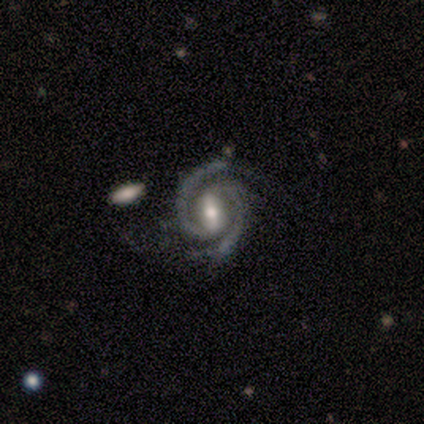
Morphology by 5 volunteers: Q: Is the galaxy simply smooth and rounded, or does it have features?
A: featured or disk — 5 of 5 (100%).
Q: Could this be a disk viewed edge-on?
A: no — 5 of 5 (100%).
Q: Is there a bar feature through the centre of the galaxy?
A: weak — 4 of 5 (80%).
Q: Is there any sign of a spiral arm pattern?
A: yes — 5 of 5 (100%).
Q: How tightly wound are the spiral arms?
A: medium — 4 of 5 (80%).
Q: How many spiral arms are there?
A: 2 — 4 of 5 (80%).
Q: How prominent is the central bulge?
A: moderate — 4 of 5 (80%).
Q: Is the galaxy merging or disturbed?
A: none — 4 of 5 (80%).